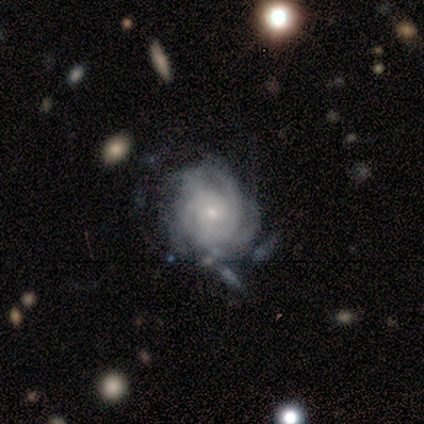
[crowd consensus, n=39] Volunteers were most divided on "merging": none: 51%, minor disturbance: 28%, major disturbance: 13%, merger: 8%. Remaining: edge-on disk — no (100%); smooth or featured — featured or disk (95%); spiral arms — yes (95%); spiral winding — tight (80%); bulge size — small (78%); bar — no (76%); spiral arm count — can't tell (46%).